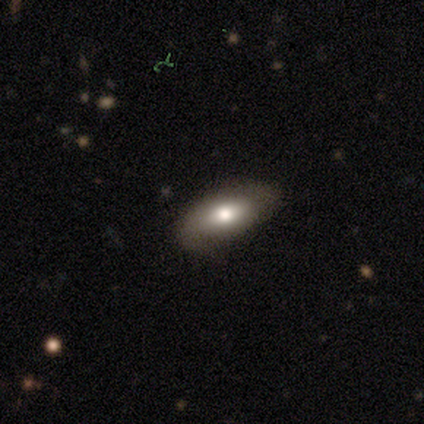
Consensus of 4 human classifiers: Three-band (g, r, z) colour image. It shows a smooth galaxy with no disk features (75%) that is in between round and cigar-shaped (67%). Merging: none (75%).